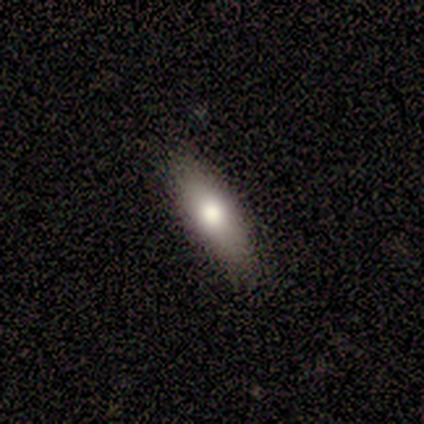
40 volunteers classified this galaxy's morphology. Smooth or featured? smooth (75%)
How rounded? in between (70%)
Merging? none (83%)